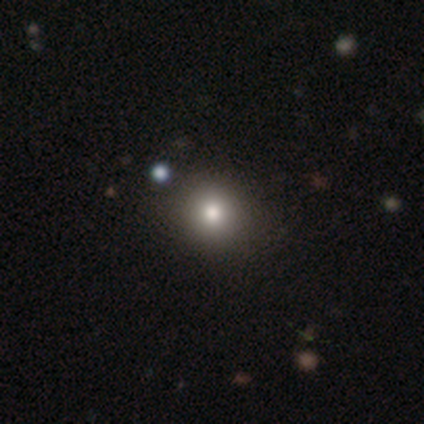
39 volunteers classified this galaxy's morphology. Volunteers were most divided on "smooth or featured": smooth: 82%, star or artifact: 13%, featured or disk: 5%. More confident: how rounded — round (94%); merging — none (79%).